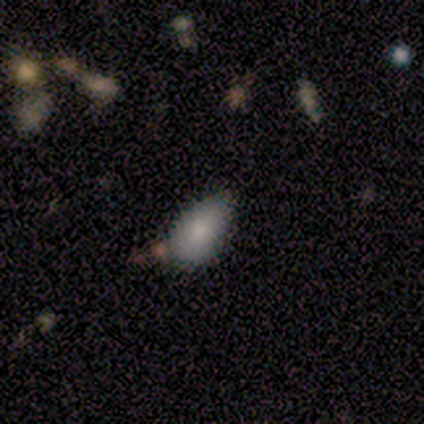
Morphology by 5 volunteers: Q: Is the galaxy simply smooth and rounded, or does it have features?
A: smooth — 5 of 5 (100%).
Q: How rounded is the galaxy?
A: in between — 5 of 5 (100%).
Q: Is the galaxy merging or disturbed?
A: none — 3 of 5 (60%).